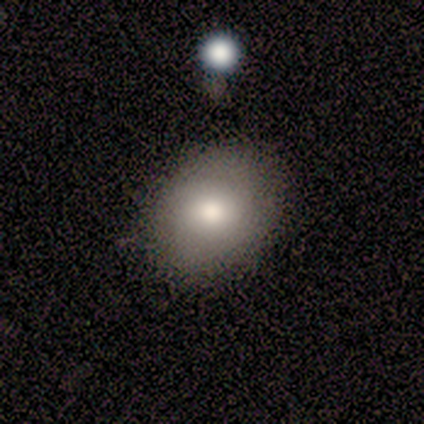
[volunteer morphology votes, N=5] type=smooth (60%); roundness=in between (67%); merging=none (100%).